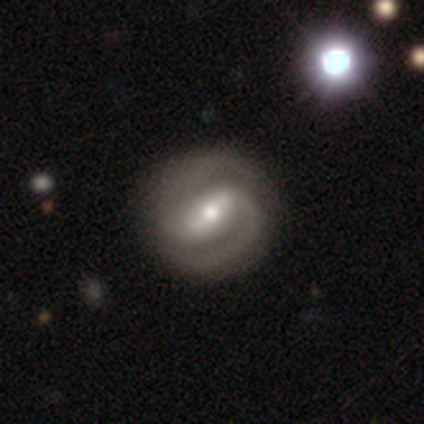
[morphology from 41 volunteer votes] smooth-or-featured: featured or disk: 85% | smooth: 12% | star or artifact: 2%
  disk-edge-on: no: 100% | yes: 0%
    bar: strong: 60% | weak: 26% | no: 14%
    has-spiral-arms: yes: 97% | no: 3%
      spiral-winding: medium: 44% | tight: 41% | loose: 15%
      spiral-arm-count: 2: 91% | can't tell: 6% | 1: 3% | 3: 0% | 4: 0% | more than 4: 0%
    bulge-size: moderate: 51% | small: 34% | large: 14% | dominant: 0% | none: 0%
  merging: none: 80% | minor disturbance: 12% | major disturbance: 5% | merger: 2%